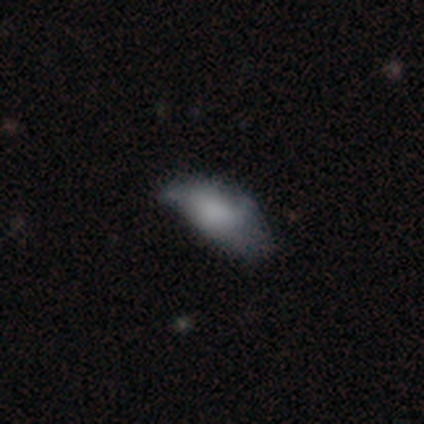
Smooth or featured?
  - smooth: 71% *
  - featured or disk: 29%
  - star or artifact: 0%
How rounded?
  - in between: 90% *
  - cigar-shaped: 10%
  - round: 0%
Merging?
  - none: 36% *
  - major disturbance: 29%
  - minor disturbance: 21%
  - merger: 14%